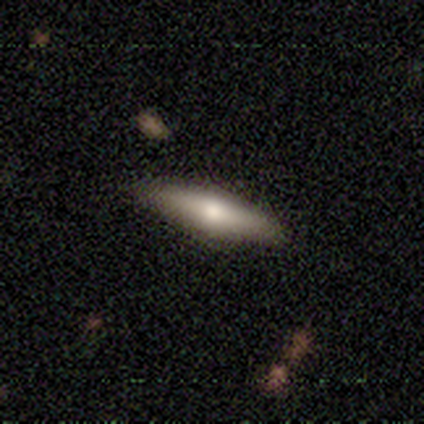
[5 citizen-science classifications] A smooth galaxy with no disk features (60%) that is cigar-shaped (100%). Merging: none (80%).